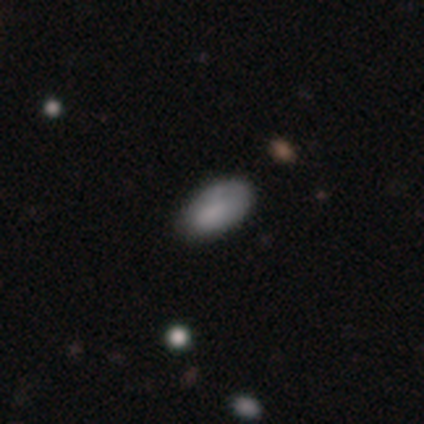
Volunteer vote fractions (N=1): Q: Smooth or featured?
A: smooth (100%)
Q: How rounded?
A: in between (100%)
Q: Merging?
A: none (100%)